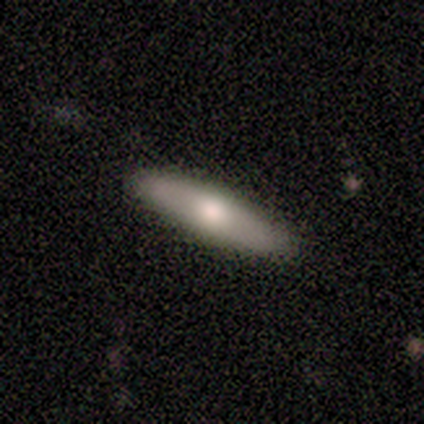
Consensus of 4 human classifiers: A featured or disk galaxy (75%) viewed edge-on (100%) with a rounded central bulge (100%). Merging: none (100%).